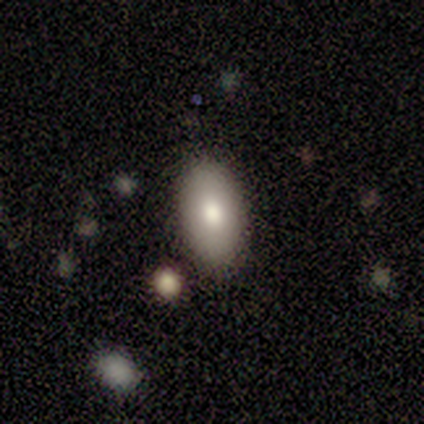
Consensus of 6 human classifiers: smooth 83%, featured or disk 17%, star or artifact 0%. Down the decision tree: how rounded — in between (100%); merging — none (100%).